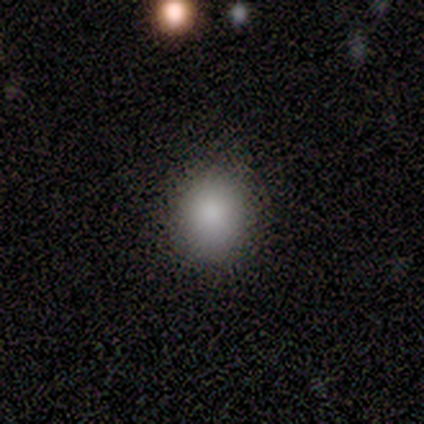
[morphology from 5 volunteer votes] smooth 100%, featured or disk 0%, star or artifact 0%. Down the decision tree: how rounded — round (60%); merging — none (100%).